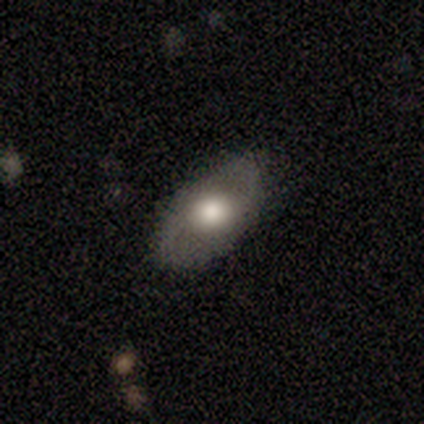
Overall: featured or disk (83%). Edge-on disk: no (100%). Bar: no (60%; weak 40%). Spiral arms: yes (100%). Spiral arm count: 2 (80%). Spiral winding: loose (100%). Bulge size: large (80%). Merging: none (83%).